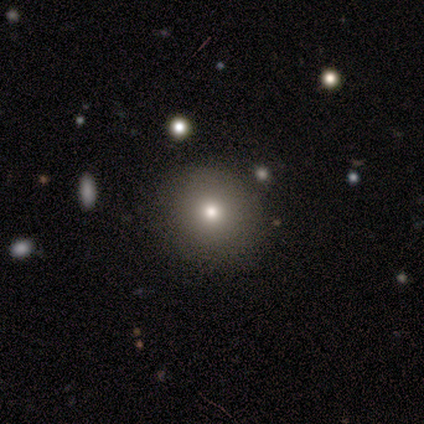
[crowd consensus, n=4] Smooth or featured?
  - smooth: 75% *
  - star or artifact: 25%
  - featured or disk: 0%
How rounded?
  - round: 67% *
  - in between: 33%
  - cigar-shaped: 0%
Merging?
  - none: 100% *
  - minor disturbance: 0%
  - major disturbance: 0%
  - merger: 0%